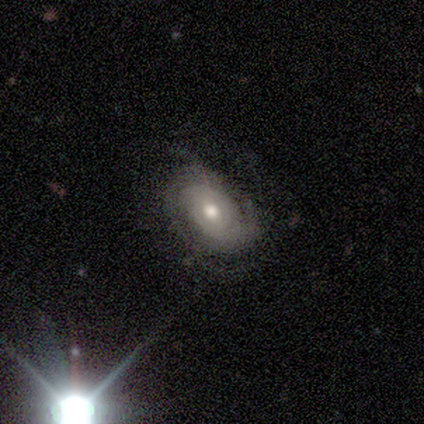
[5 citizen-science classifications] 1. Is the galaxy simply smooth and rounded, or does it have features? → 100% featured or disk, 0% smooth, 0% star or artifact.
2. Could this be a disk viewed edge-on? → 100% no, 0% yes.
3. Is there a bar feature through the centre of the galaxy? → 60% weak, 40% no, 0% strong.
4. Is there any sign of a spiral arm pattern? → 100% yes, 0% no.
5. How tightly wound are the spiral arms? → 60% tight, 40% medium, 0% loose.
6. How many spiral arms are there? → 40% 2 (tied), 40% can't tell (tied), 20% 3, 0% 1, 0% 4, 0% more than 4.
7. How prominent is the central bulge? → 100% moderate, 0% dominant, 0% large, 0% small, 0% none.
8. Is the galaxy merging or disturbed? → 80% none, 20% minor disturbance, 0% major disturbance, 0% merger.